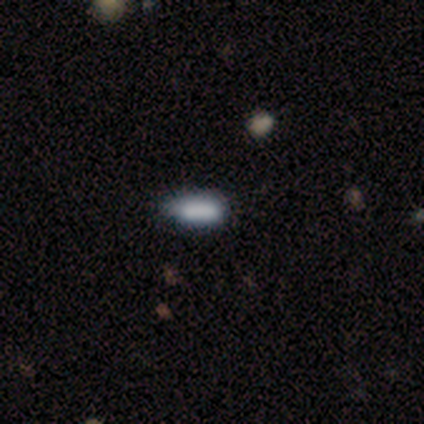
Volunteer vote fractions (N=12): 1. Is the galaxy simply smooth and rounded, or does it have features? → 67% smooth, 25% star or artifact, 8% featured or disk.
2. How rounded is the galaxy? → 75% in between, 25% cigar-shaped, 0% round.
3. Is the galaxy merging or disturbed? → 67% none, 33% minor disturbance, 0% major disturbance, 0% merger.